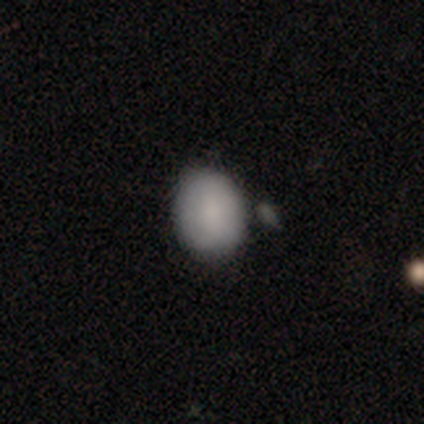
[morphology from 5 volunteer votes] type=smooth (100%); roundness=in between (60%); merging=none (80%).